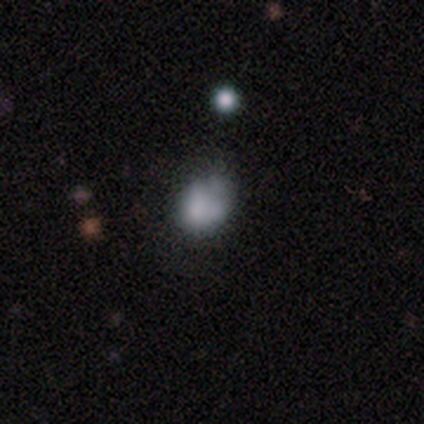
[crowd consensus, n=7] Smooth or featured?
  - smooth: 71% *
  - featured or disk: 14%
  - star or artifact: 14%
How rounded?
  - in between: 60% *
  - round: 40%
  - cigar-shaped: 0%
Merging?
  - none: 50% *
  - minor disturbance: 33%
  - major disturbance: 17%
  - merger: 0%